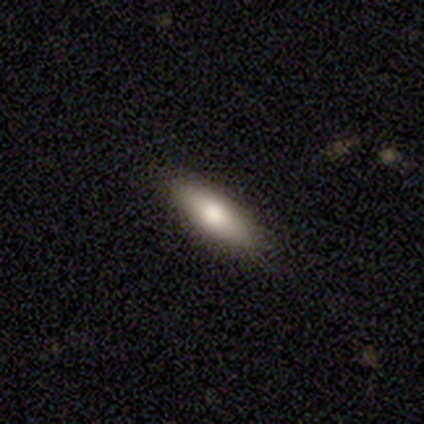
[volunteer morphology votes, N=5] This is clearly a smooth galaxy (100%). How rounded: likely in between (60%). Merging: clearly none (100%).